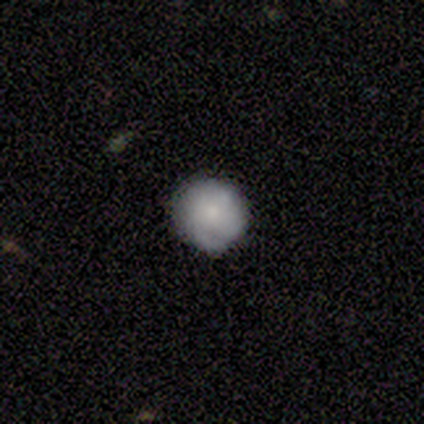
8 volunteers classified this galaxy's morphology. smooth-or-featured: smooth: 88% | featured or disk: 12% | star or artifact: 0%
  how-rounded: round: 100% | in between: 0% | cigar-shaped: 0%
  merging: none: 100% | minor disturbance: 0% | major disturbance: 0% | merger: 0%